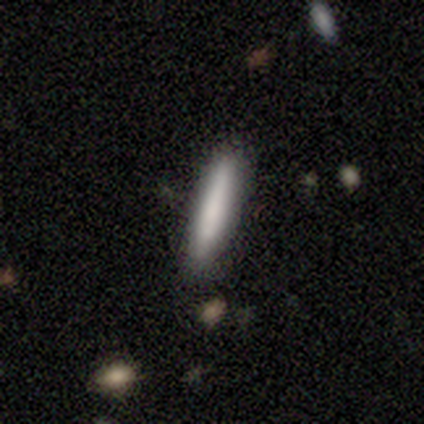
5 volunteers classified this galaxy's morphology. smooth-or-featured: smooth: 100% | featured or disk: 0% | star or artifact: 0%
  how-rounded: cigar-shaped: 100% | round: 0% | in between: 0%
  merging: none: 100% | minor disturbance: 0% | major disturbance: 0% | merger: 0%